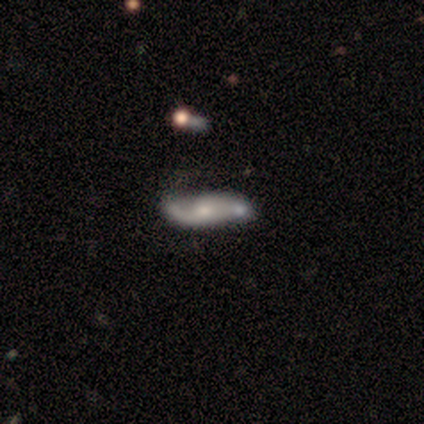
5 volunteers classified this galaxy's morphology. A featured or disk galaxy (80%) with a weak bar (50%, tied with no), 2 (100%) loose (50%) spiral arms (100%) and a moderate central bulge (75%).

Vote fractions:
- Smooth or featured? featured or disk: 80% / smooth: 20% / star or artifact: 0%
- Edge-on disk? no: 100% / yes: 0%
- Bar? weak: 50% (tied) / no: 50% (tied) / strong: 0%
- Spiral arms? yes: 100% / no: 0%
- Spiral winding? loose: 50% / tight: 25% / medium: 25%
- Spiral arm count? 2: 100% / 1: 0% / 3: 0% / 4: 0% / more than 4: 0% / can't tell: 0%
- Bulge size? moderate: 75% / large: 25% / dominant: 0% / small: 0% / none: 0%
- Merging? none: 60% / major disturbance: 20% / merger: 20% / minor disturbance: 0%